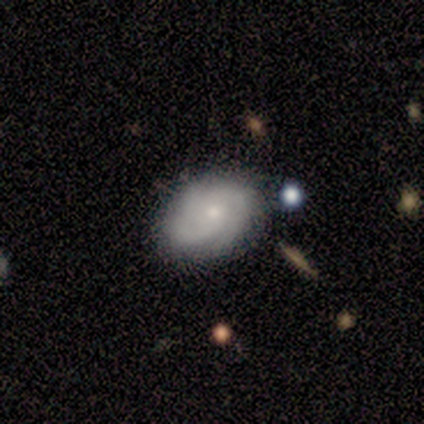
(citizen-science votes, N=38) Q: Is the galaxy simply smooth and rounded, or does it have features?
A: featured or disk — 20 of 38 (53%).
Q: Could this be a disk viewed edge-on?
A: no — 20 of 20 (100%).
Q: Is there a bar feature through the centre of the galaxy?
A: no — 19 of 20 (95%).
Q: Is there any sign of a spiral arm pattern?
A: yes — 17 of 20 (85%).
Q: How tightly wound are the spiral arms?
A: tight — 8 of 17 (47%, tied with medium).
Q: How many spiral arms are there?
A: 3 — 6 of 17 (35%).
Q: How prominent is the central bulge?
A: small — 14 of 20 (70%).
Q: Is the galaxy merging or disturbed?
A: none — 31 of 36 (86%).